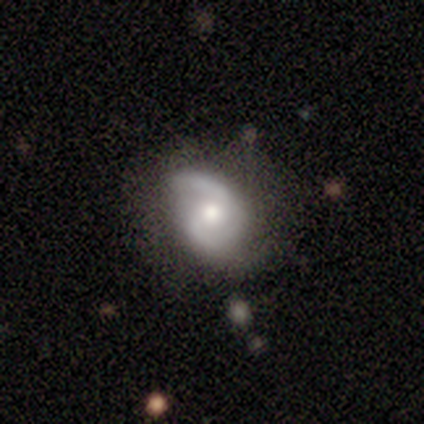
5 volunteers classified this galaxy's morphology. Q: Smooth or featured?
A: featured or disk (60%); runner-up: smooth (20%)
Q: Edge-on disk?
A: no (100%)
Q: Bar?
A: no (67%); runner-up: weak (33%)
Q: Spiral arms?
A: yes (100%)
Q: Spiral winding?
A: medium (67%); runner-up: loose (33%)
Q: Spiral arm count?
A: 2 (100%)
Q: Bulge size?
A: moderate (67%); runner-up: small (33%)
Q: Merging?
A: none (50%); tied with: minor disturbance (50%)